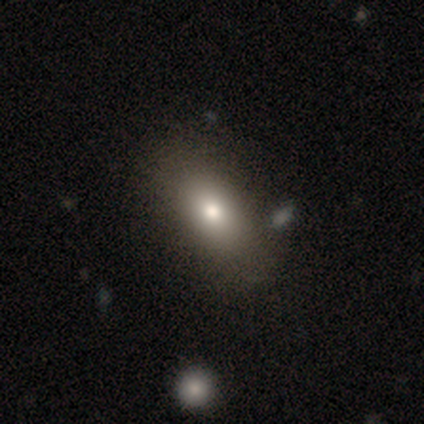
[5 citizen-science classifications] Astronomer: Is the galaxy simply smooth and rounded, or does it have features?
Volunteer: star or artifact — 60% (runner-up: smooth, 40%).